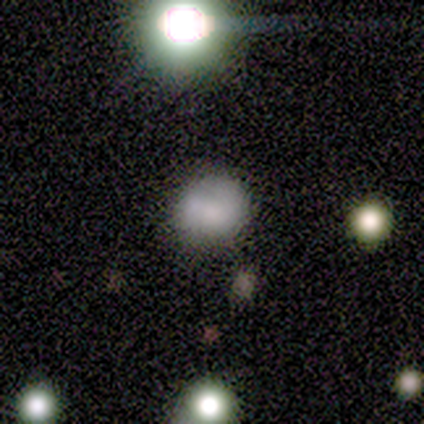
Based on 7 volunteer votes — This is likely a smooth galaxy (71%). How rounded: clearly round (80%). Merging: clearly none (83%).